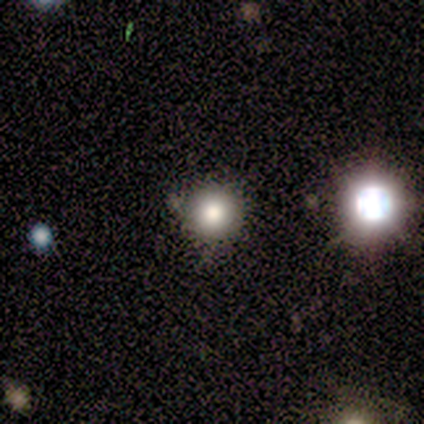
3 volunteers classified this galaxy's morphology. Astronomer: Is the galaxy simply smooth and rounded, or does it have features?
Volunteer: smooth — 100%.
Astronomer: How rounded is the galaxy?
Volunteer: round — 67%.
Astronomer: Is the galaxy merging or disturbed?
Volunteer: none — 100%.